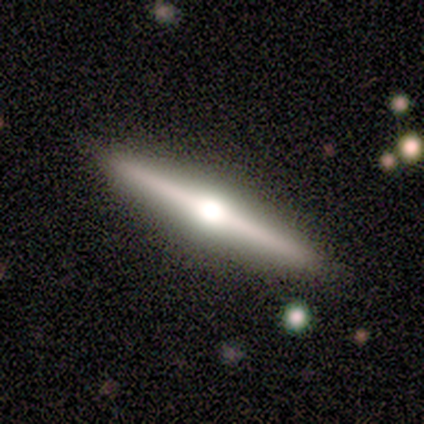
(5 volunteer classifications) Smooth or featured? featured or disk (60%)
Edge-on disk? yes (100%)
Edge-on bulge? rounded (100%)
Merging? none (100%)